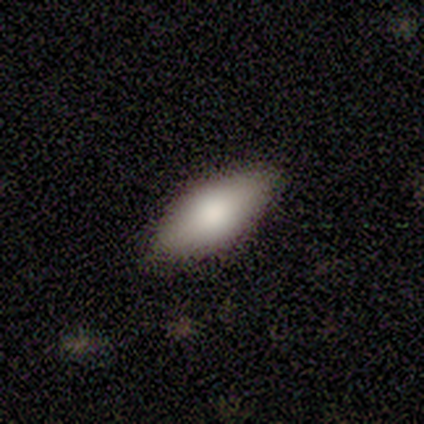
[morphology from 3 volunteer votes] This appears to be a smooth galaxy with no disk features (33%, tied with featured or disk and star or artifact) that is in between round and cigar-shaped (100%). Merging: none (100%).